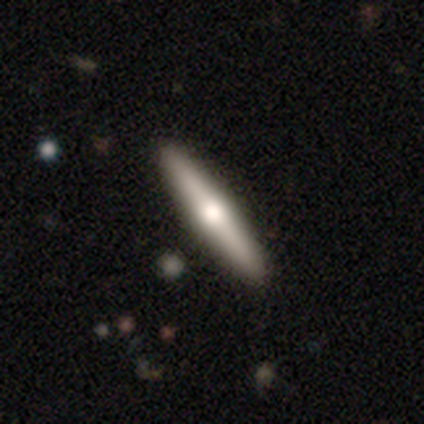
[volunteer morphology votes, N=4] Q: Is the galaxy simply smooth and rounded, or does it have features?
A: smooth — 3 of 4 (75%).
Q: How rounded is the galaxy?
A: cigar-shaped — 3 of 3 (100%).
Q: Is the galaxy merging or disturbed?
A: none — 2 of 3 (67%).